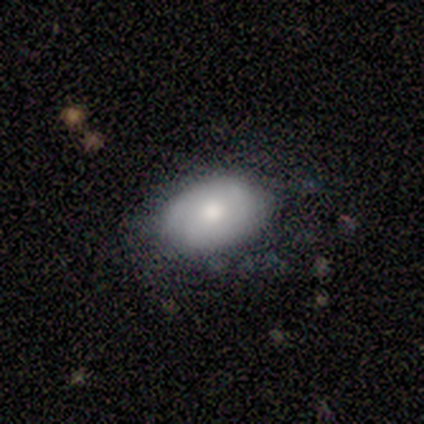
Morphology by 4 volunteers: smooth 75%, featured or disk 25%, star or artifact 0%. Down the decision tree: how rounded — in between (100%); merging — none (75%).